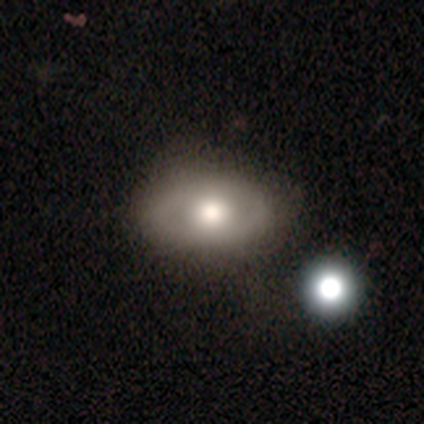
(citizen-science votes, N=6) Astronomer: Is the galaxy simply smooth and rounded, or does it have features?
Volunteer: featured or disk — 67%.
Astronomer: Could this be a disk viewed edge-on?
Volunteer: no — 75%.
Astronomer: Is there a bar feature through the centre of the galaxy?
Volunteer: no — 100%.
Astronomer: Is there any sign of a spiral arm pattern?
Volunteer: no — 100%.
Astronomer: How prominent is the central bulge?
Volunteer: moderate — 100%.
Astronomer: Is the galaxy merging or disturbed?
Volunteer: none — 67%.